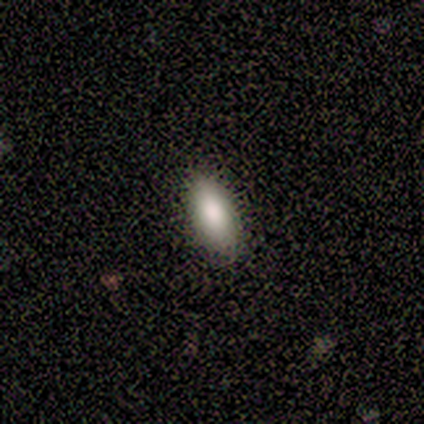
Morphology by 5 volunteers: smooth_or_featured: smooth (p=0.60) [alt: featured or disk p=0.20]
how_rounded: in between (p=1.00)
merging: none (p=0.75) [alt: minor disturbance p=0.25]